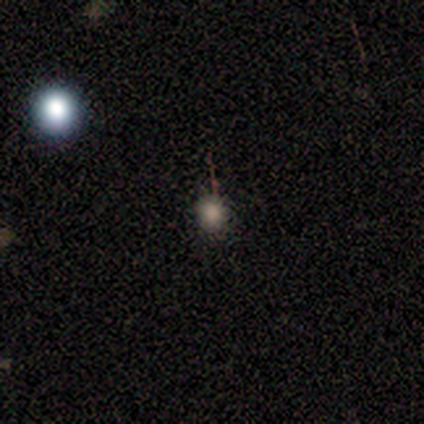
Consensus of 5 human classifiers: Smooth or featured? smooth (80%)
How rounded? round (100%)
Merging? none (100%)